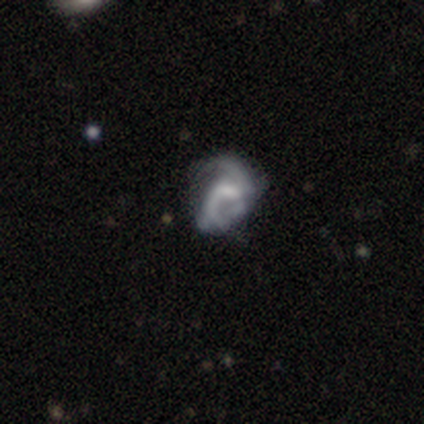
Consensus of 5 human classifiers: A smooth galaxy with no disk features (40%, tied with featured or disk) that is round (50%, tied with in between).

Vote fractions:
- Smooth or featured? smooth: 40% (tied) / featured or disk: 40% (tied) / star or artifact: 20%
- How rounded? round: 50% (tied) / in between: 50% (tied) / cigar-shaped: 0%
- Merging? minor disturbance: 50% (tied) / major disturbance: 50% (tied) / none: 0% / merger: 0%